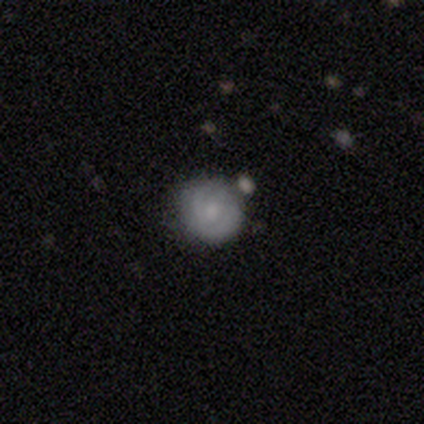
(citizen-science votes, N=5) smooth-or-featured: featured or disk: 60% | smooth: 40% | star or artifact: 0%
  disk-edge-on: no: 100% | yes: 0%
    bar: weak: 67% | no: 33% | strong: 0%
    has-spiral-arms: yes: 67% | no: 33%
      spiral-winding: tight: 100% | medium: 0% | loose: 0%
      spiral-arm-count: 2: 50% (tied) | 3: 50% (tied) | 1: 0% | 4: 0% | more than 4: 0% | can't tell: 0%
    bulge-size: moderate: 100% | dominant: 0% | large: 0% | small: 0% | none: 0%
  merging: none: 80% | minor disturbance: 20% | major disturbance: 0% | merger: 0%